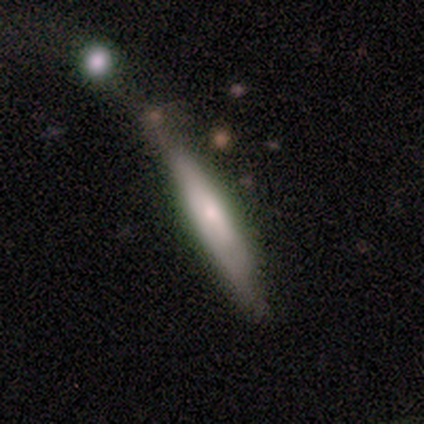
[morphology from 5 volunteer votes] Overall: smooth (60%; featured or disk 40%). How rounded: cigar-shaped (100%). Merging: none (40%, tied with minor disturbance).